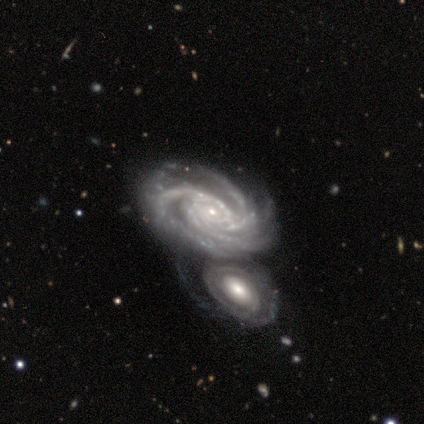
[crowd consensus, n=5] Smooth or featured? 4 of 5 (80%) said featured or disk. Edge-on disk? 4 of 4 (100%) said no. Bar? 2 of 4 (50%) said weak. Spiral arms? 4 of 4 (100%) said yes. Spiral winding? 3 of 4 (75%) said tight. Spiral arm count? 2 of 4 (50%) said 3. Bulge size? 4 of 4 (100%) said small. Merging? 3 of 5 (60%) said merger.